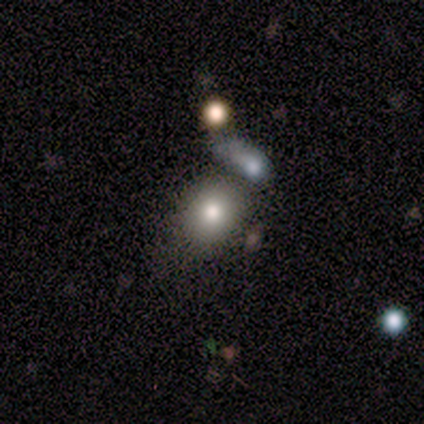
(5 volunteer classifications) Volunteers were most divided on "how rounded" (2-way tie): round: 50%, in between: 50%, cigar-shaped: 0%. More confident: smooth or featured — smooth (80%); merging — none (50%).